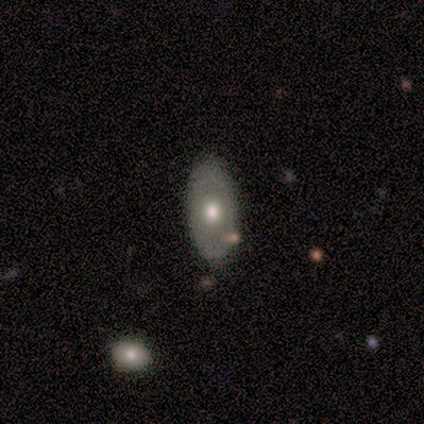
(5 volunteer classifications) Smooth or featured? 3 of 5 (60%) said smooth. How rounded? 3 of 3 (100%) said in between. Merging? 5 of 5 (100%) said none.